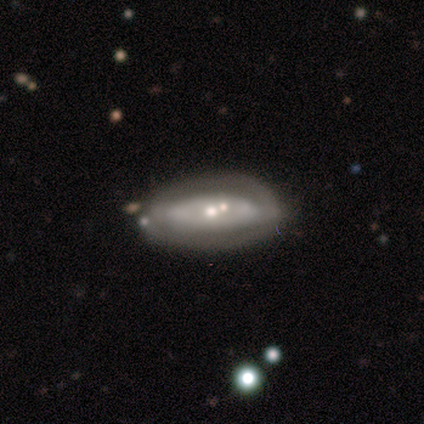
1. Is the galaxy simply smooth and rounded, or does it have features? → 80% featured or disk, 20% smooth, 0% star or artifact.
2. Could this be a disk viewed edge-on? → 100% no, 0% yes.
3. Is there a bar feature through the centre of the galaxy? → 75% no, 25% strong, 0% weak.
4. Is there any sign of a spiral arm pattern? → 75% yes, 25% no.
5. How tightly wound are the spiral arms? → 67% medium, 33% tight, 0% loose.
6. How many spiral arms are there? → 100% 2, 0% 1, 0% 3, 0% 4, 0% more than 4, 0% can't tell.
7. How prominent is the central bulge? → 50% moderate (tied), 50% small (tied), 0% dominant, 0% large, 0% none.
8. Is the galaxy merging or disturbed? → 60% none, 40% minor disturbance, 0% major disturbance, 0% merger.